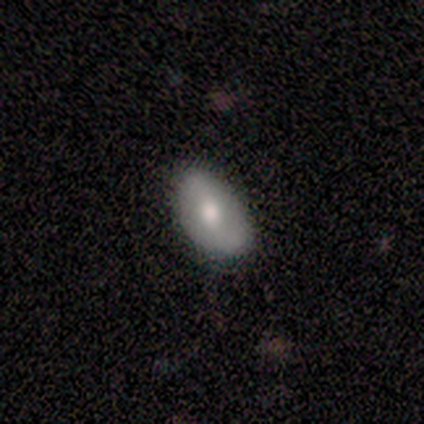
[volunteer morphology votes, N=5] Volunteers were most divided on "smooth or featured": featured or disk: 60%, smooth: 40%, star or artifact: 0%. More confident: edge-on disk — no (100%); spiral arms — no (100%); bulge size — moderate (100%); bar — no (67%); merging — none (60%).